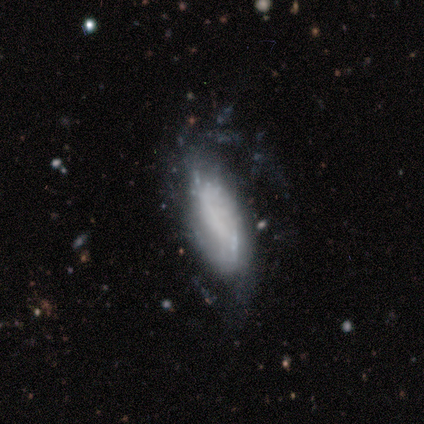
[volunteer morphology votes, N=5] This appears to be a featured or disk galaxy (100%) with no bar (60%), tight (100%) spiral arms (60%) and no central bulge (60%). Merging: none (40%, tied with minor disturbance).